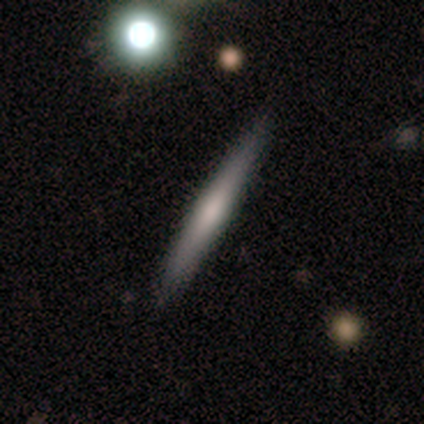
This is clearly a smooth galaxy (80%). How rounded: clearly cigar-shaped (100%). Merging: clearly none (100%).